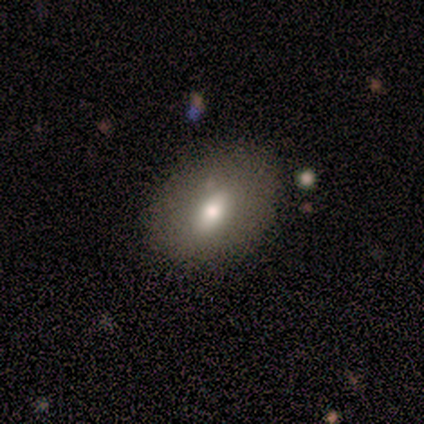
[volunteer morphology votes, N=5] A smooth galaxy with no disk features (40%, tied with featured or disk) that is in between round and cigar-shaped (100%). Merging: none (75%).